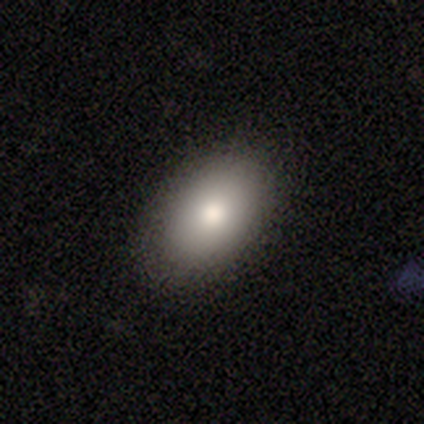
A smooth galaxy with no disk features (87%) that is in between round and cigar-shaped (94%). Merging: none (94%).